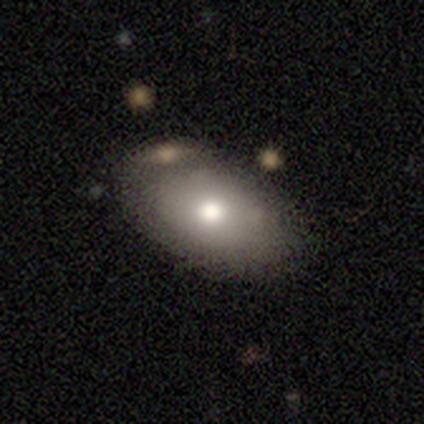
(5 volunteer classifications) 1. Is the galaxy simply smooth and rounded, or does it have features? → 60% smooth, 40% featured or disk, 0% star or artifact.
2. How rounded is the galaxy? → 100% in between, 0% round, 0% cigar-shaped.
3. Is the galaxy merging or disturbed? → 80% none, 20% merger, 0% minor disturbance, 0% major disturbance.